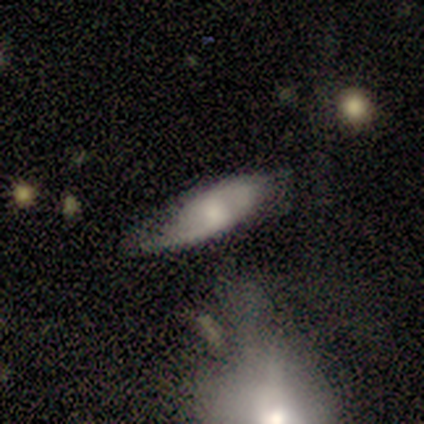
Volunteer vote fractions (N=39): Smooth or featured: featured or disk — 56% (smooth — 44%)
Edge-on disk: no — 77% (yes — 23%)
Bar: weak — 59% (no — 35%)
Spiral arms: yes — 82% (no — 18%)
Spiral winding: loose — 64% (medium — 29%)
Spiral arm count: 2 — 86% (more than 4 — 7%)
Bulge size: moderate — 41% (small — 29%)
Merging: none — 54% (minor disturbance — 33%)